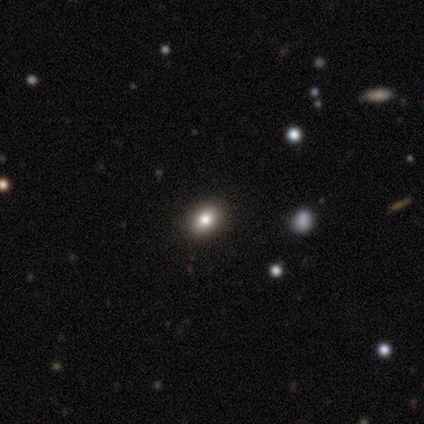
A smooth galaxy with no disk features (100%) that is in between round and cigar-shaped (60%). Merging: none (80%).